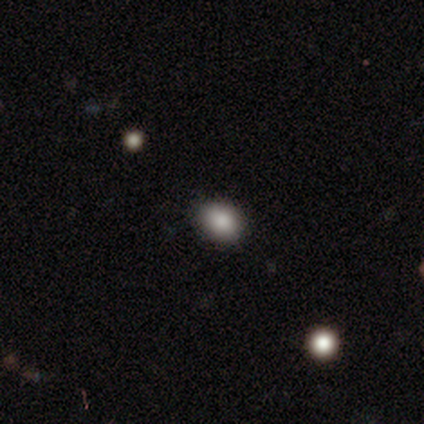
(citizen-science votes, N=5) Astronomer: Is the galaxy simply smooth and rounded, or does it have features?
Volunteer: smooth — 100%.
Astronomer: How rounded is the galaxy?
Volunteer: round — 60% (runner-up: in between, 40%).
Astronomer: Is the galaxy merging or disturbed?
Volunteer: none — 100%.